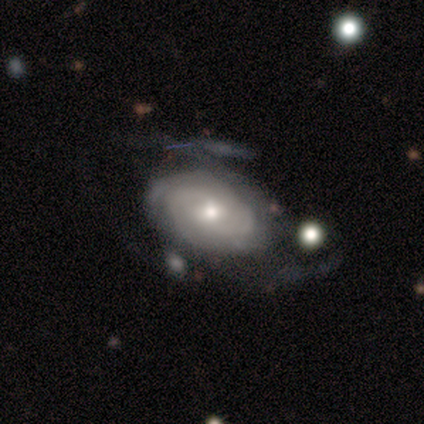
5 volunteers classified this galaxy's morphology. A smooth galaxy with no disk features (60%) that is in between round and cigar-shaped (67%).

Vote fractions:
- Smooth or featured? smooth: 60% / featured or disk: 40% / star or artifact: 0%
- How rounded? in between: 67% / round: 33% / cigar-shaped: 0%
- Merging? none: 40% / minor disturbance: 20% / major disturbance: 20% / merger: 20%